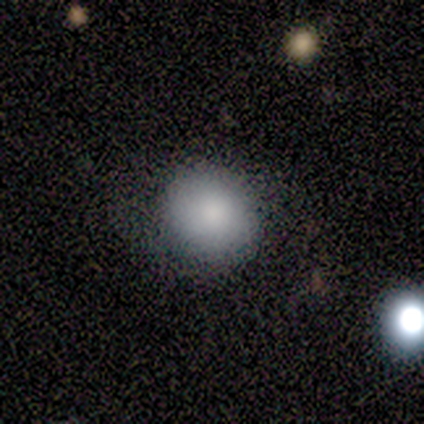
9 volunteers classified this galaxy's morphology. Smooth or featured? smooth (89%)
How rounded? round (75%)
Merging? none (67%)